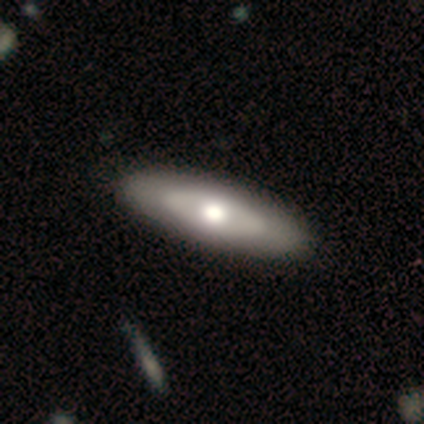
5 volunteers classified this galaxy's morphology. type=featured or disk (80%); edge-on=no (100%); bar=no (100%); spiral arms=no (100%); bulge=moderate (100%); merging=none (75%).